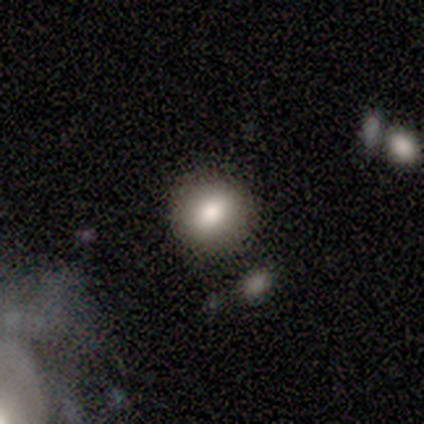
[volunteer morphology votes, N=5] A smooth galaxy with no disk features (80%) that is round (75%). Merging: none (50%).